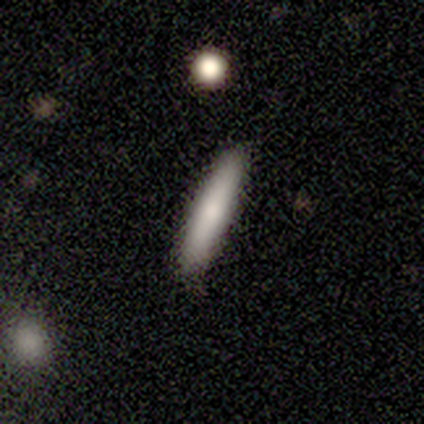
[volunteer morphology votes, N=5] smooth_or_featured: smooth (p=0.60) [alt: featured or disk p=0.40]
how_rounded: cigar-shaped (p=1.00)
merging: none (p=0.80) [alt: minor disturbance p=0.20]